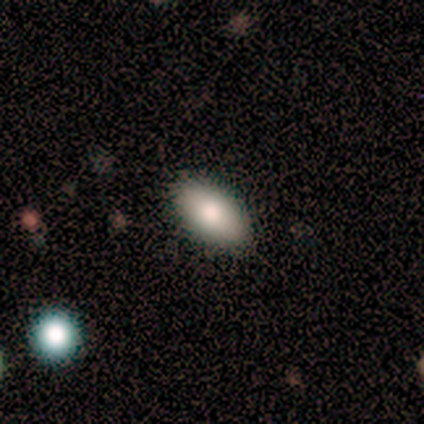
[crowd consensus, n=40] Q: Smooth or featured?
A: smooth (85%); runner-up: star or artifact (12%)
Q: How rounded?
A: in between (88%); runner-up: cigar-shaped (9%)
Q: Merging?
A: none (97%); runner-up: minor disturbance (3%)